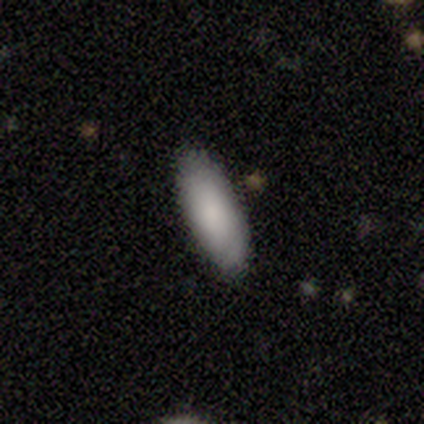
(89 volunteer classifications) smooth-or-featured: smooth: 84% | star or artifact: 9% | featured or disk: 7%
  how-rounded: in between: 64% | cigar-shaped: 35% | round: 1%
  merging: none: 86% | minor disturbance: 12% | merger: 1% | major disturbance: 0%